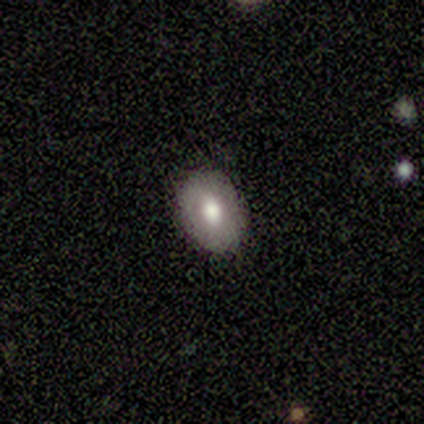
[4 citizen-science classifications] This appears to be a smooth galaxy with no disk features (75%) that is in between round and cigar-shaped (67%). Merging: none (100%).